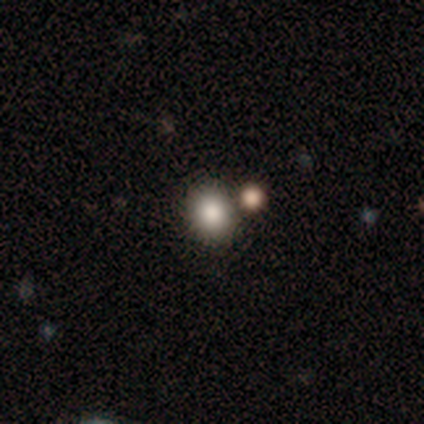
Morphology: type=smooth (80%); roundness=round (100%); merging=none (75%).